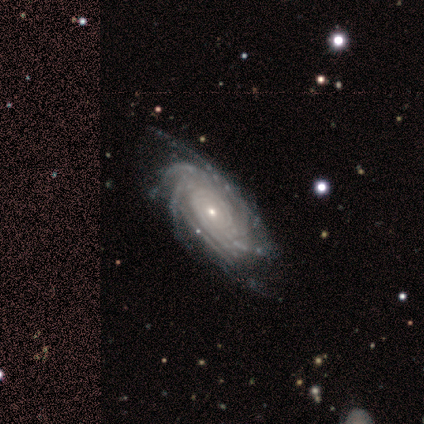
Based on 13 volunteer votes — A featured or disk galaxy (100%) with no bar (77%), more than 4 (31%, tied with can't tell) tight (77%) spiral arms (100%) and a small central bulge (85%). Merging: none (85%).